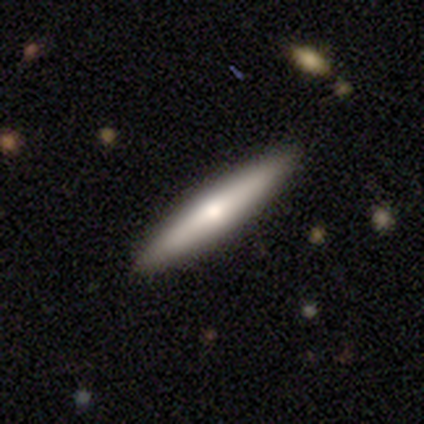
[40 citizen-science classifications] Morphology: type=featured or disk (48%); edge-on=yes (95%); edge-on bulge=rounded (61%); merging=none (95%).